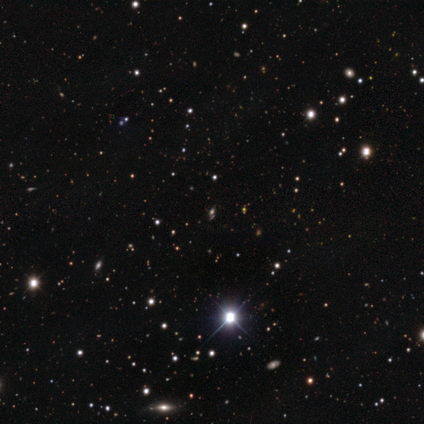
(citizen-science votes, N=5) Smooth or featured: star or artifact — 60% (smooth — 40%)